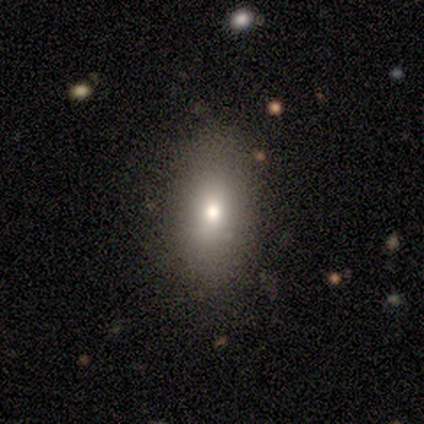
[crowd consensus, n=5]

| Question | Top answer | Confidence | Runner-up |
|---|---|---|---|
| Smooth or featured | smooth | 100% | — |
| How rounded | in between | 100% | — |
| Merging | none | 60% | minor disturbance (40%) |